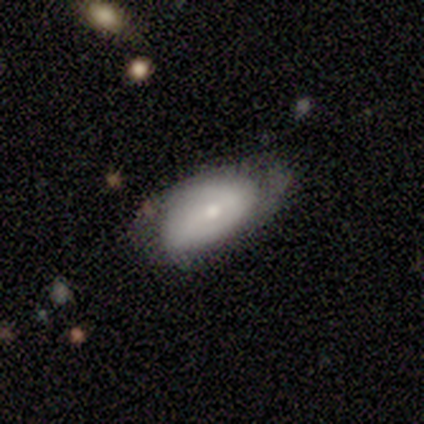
Smooth or featured?
  - featured or disk: 60% *
  - smooth: 40%
  - star or artifact: 0%
Edge-on disk?
  - no: 100% *
  - yes: 0%
Bar?
  - no: 67% *
  - weak: 33%
  - strong: 0%
Spiral arms?
  - no: 67% *
  - yes: 33%
Bulge size?
  - small: 67% *
  - moderate: 33%
  - dominant: 0%
  - large: 0%
  - none: 0%
Merging?
  - none: 60% *
  - minor disturbance: 20%
  - major disturbance: 20%
  - merger: 0%